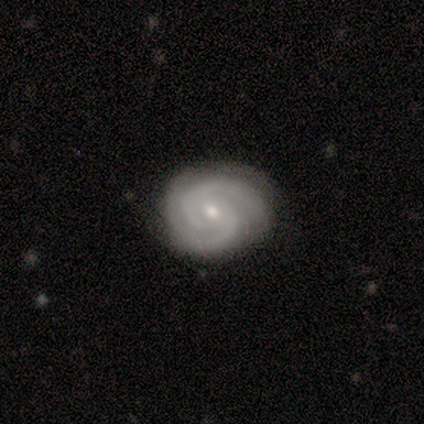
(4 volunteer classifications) smooth-or-featured: featured or disk: 100% | smooth: 0% | star or artifact: 0%
  disk-edge-on: no: 100% | yes: 0%
    bar: no: 75% | weak: 25% | strong: 0%
    has-spiral-arms: yes: 100% | no: 0%
      spiral-winding: tight: 75% | medium: 25% | loose: 0%
      spiral-arm-count: 2: 100% | 1: 0% | 3: 0% | 4: 0% | more than 4: 0% | can't tell: 0%
    bulge-size: small: 75% | moderate: 25% | dominant: 0% | large: 0% | none: 0%
  merging: none: 100% | minor disturbance: 0% | major disturbance: 0% | merger: 0%